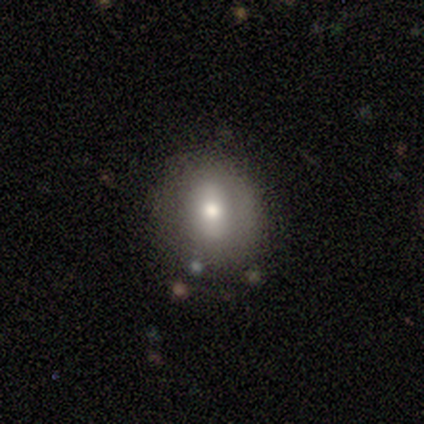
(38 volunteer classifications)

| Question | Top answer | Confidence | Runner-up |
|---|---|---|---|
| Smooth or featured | smooth | 61% | featured or disk (26%) |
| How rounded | round | 65% | in between (35%) |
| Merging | none | 79% | minor disturbance (12%) |